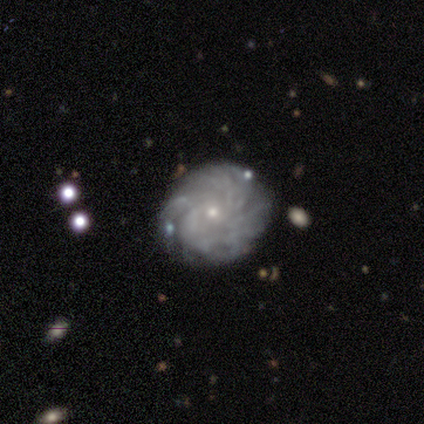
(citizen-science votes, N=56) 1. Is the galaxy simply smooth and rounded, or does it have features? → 84% featured or disk, 12% smooth, 4% star or artifact.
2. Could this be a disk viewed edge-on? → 100% no, 0% yes.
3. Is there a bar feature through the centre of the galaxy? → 81% no, 19% weak, 0% strong.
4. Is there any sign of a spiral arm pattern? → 87% yes, 13% no.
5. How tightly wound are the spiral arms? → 78% tight, 17% medium, 5% loose.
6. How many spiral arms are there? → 56% can't tell, 34% more than 4, 5% 3, 2% 2, 2% 4, 0% 1.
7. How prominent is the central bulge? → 74% small, 26% moderate, 0% dominant, 0% large, 0% none.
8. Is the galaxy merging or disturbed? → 81% none, 13% minor disturbance, 4% merger, 2% major disturbance.